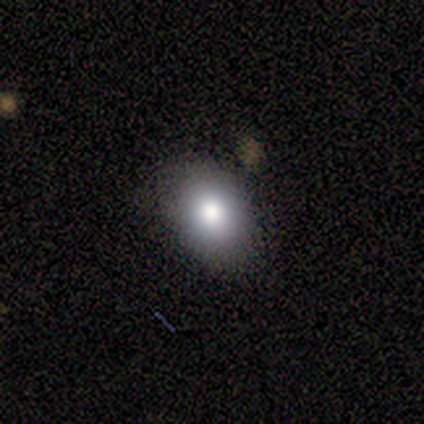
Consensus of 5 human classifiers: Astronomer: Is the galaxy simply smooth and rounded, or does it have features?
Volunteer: smooth — 100%.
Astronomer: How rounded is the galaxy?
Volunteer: in between — 80%.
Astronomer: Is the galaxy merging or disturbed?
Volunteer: none — 100%.